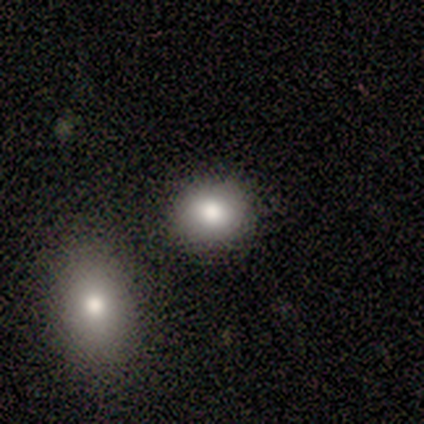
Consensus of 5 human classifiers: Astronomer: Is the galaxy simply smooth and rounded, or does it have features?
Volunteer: smooth — 80%.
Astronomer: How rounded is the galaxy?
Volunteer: round — 75%.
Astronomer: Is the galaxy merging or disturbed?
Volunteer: none — 75%.